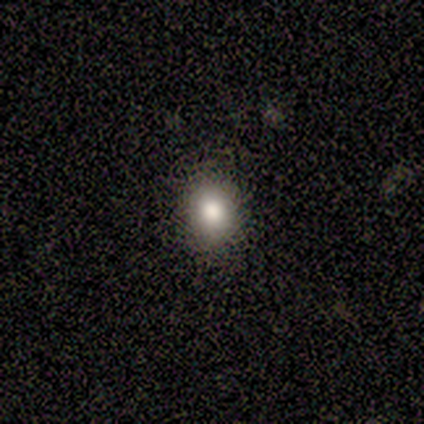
Q: Smooth or featured?
A: smooth (86%); runner-up: star or artifact (14%)
Q: How rounded?
A: round (67%); runner-up: in between (33%)
Q: Merging?
A: none (83%); runner-up: minor disturbance (17%)